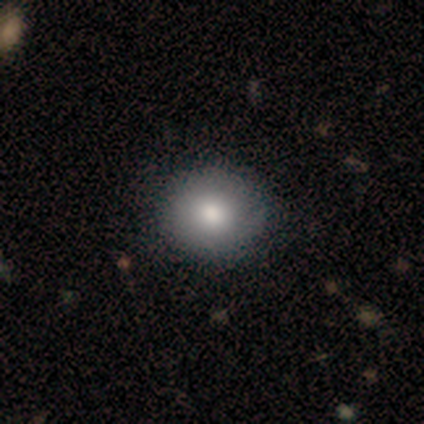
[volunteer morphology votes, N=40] type=smooth (92%); roundness=round (92%); merging=none (46%).